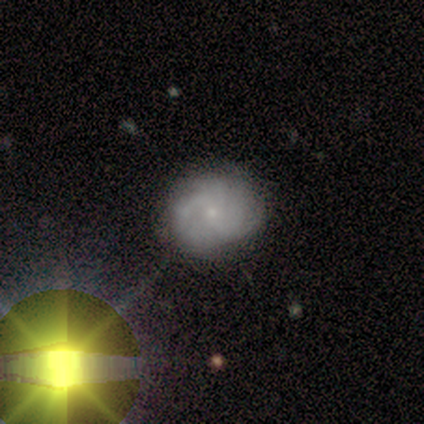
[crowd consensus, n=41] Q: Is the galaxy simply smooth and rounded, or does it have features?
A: featured or disk — 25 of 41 (61%).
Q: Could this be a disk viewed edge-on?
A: no — 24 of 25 (96%).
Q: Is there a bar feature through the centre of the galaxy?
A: no — 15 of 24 (62%).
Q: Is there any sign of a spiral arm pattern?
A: yes — 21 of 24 (88%).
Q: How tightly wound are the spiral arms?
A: tight — 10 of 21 (48%).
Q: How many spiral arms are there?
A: can't tell — 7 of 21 (33%).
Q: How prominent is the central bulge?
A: small — 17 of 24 (71%).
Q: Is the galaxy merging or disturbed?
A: none — 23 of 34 (68%).